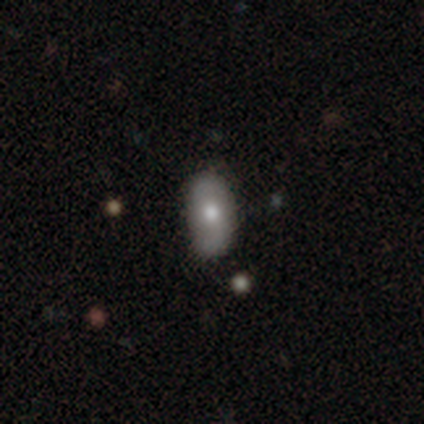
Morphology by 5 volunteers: A smooth galaxy with no disk features (60%) that is in between round and cigar-shaped (100%).

Vote fractions:
- Smooth or featured? smooth: 60% / featured or disk: 40% / star or artifact: 0%
- How rounded? in between: 100% / round: 0% / cigar-shaped: 0%
- Merging? none: 80% / minor disturbance: 20% / major disturbance: 0% / merger: 0%